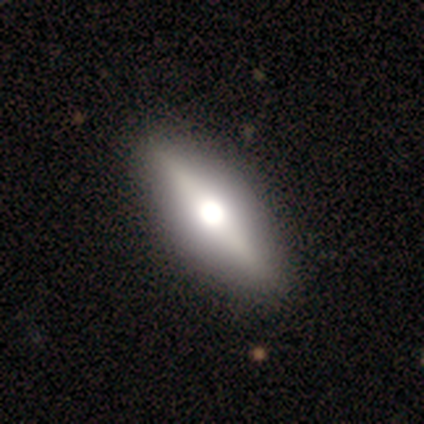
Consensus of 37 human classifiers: A featured or disk galaxy (54%) viewed edge-on (90%) with a rounded central bulge (100%).

Vote fractions:
- Smooth or featured? featured or disk: 54% / smooth: 35% / star or artifact: 11%
- Edge-on disk? yes: 90% / no: 10%
- Edge-on bulge? rounded: 100% / boxy: 0% / none: 0%
- Merging? none: 61% / minor disturbance: 3% / major disturbance: 0% / merger: 0%